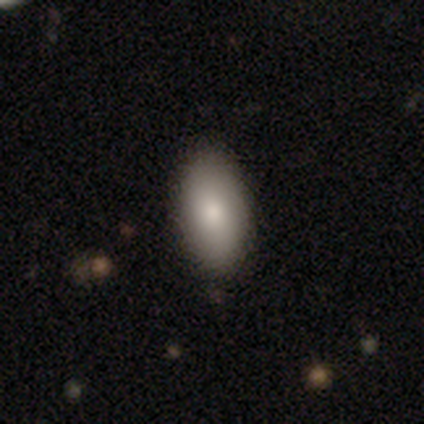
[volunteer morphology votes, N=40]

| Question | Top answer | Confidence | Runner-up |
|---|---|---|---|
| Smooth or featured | smooth | 90% | featured or disk (8%) |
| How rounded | in between | 97% | cigar-shaped (3%) |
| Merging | none | 62% | minor disturbance (8%) |